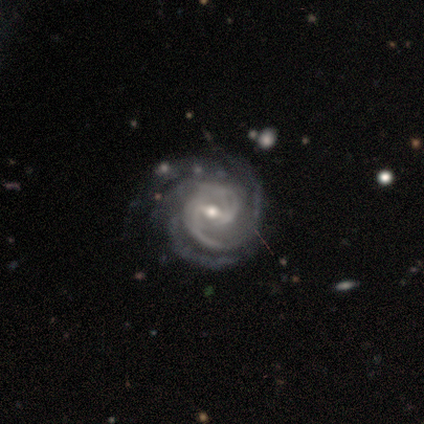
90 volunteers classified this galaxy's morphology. Smooth or featured: featured or disk — 93% (star or artifact — 6%)
Edge-on disk: no — 100%
Bar: weak — 51% (strong — 40%)
Spiral arms: yes — 96% (no — 4%)
Spiral winding: tight — 65% (medium — 31%)
Spiral arm count: 4 — 38% (3 — 27%)
Bulge size: moderate — 65% (small — 33%)
Merging: none — 75% (minor disturbance — 18%)